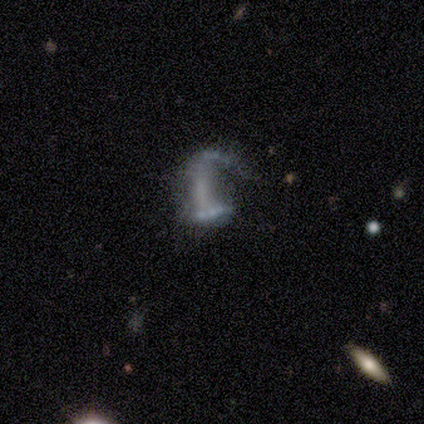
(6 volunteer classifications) Volunteers were most divided on "merging": major disturbance: 60%, none: 20%, merger: 20%, minor disturbance: 0%. More confident: edge-on disk — no (100%); bar — no (100%); spiral arms — no (100%); bulge size — none (100%); smooth or featured — featured or disk (67%).